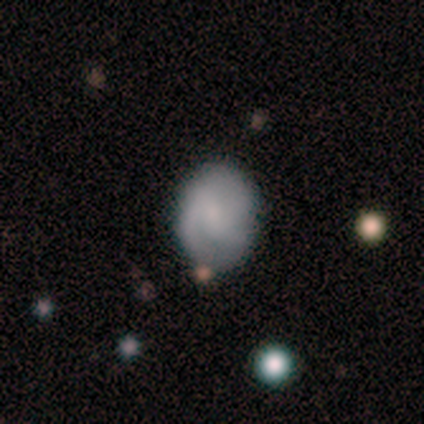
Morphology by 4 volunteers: A smooth galaxy with no disk features (75%) that is round (67%).

Vote fractions:
- Smooth or featured? smooth: 75% / featured or disk: 25% / star or artifact: 0%
- How rounded? round: 67% / in between: 33% / cigar-shaped: 0%
- Merging? none: 100% / minor disturbance: 0% / major disturbance: 0% / merger: 0%